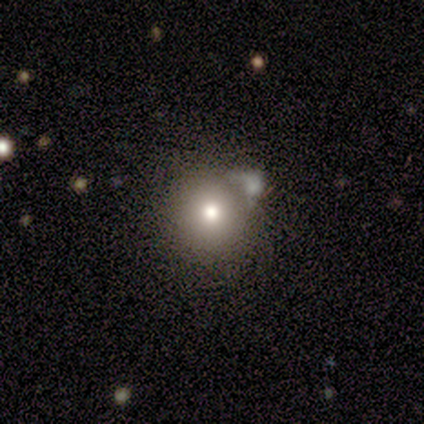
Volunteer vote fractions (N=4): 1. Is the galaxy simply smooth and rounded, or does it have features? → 50% smooth, 25% featured or disk, 25% star or artifact.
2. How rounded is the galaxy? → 100% round, 0% in between, 0% cigar-shaped.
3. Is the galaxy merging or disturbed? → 67% merger, 33% none, 0% minor disturbance, 0% major disturbance.